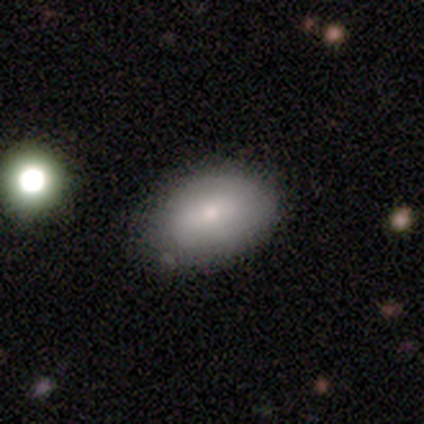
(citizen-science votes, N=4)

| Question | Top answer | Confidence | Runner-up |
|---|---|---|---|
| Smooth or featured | smooth | 75% | star or artifact (25%) |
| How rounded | in between | 100% | — |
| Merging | none | 100% | — |